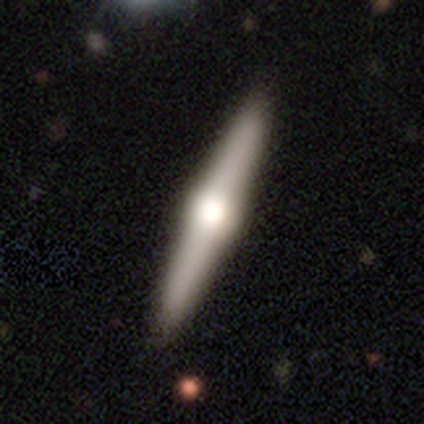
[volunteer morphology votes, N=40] This appears to be a featured or disk galaxy (85%) viewed edge-on (100%) with a rounded central bulge (94%). Merging: none (90%).